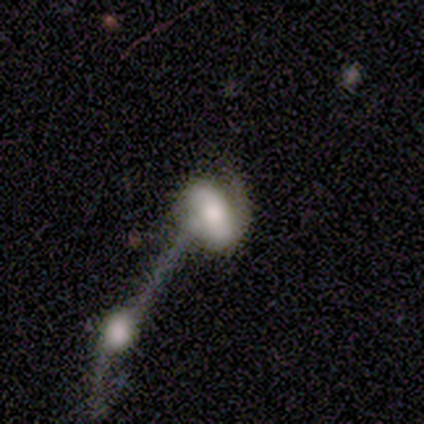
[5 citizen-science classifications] This is likely a featured or disk galaxy (60%). It is likely not viewed edge-on (67%). Bar: possibly strong (50%, tied with no). Spiral arm pattern: clearly yes (100%). Spiral arm count: possibly 1 (50%, tied with can't tell). Spiral winding: possibly medium (50%, tied with loose). Central bulge: possibly large (50%, tied with none). Merging: clearly merger (80%).